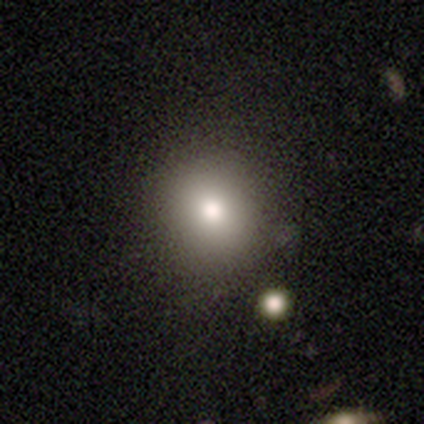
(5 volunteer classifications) Morphology: type=smooth (80%); roundness=round (100%); merging=none (50%).